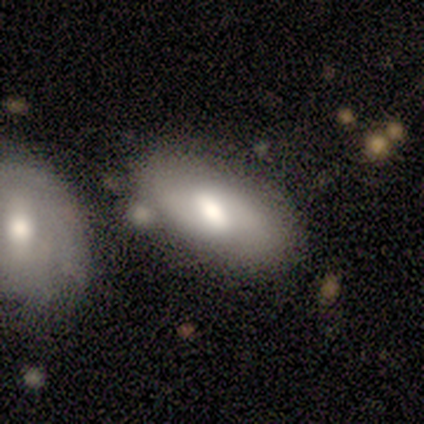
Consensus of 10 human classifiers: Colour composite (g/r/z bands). It shows a smooth galaxy with no disk features (80%) that is in between round and cigar-shaped (100%). Merging: none (78%).